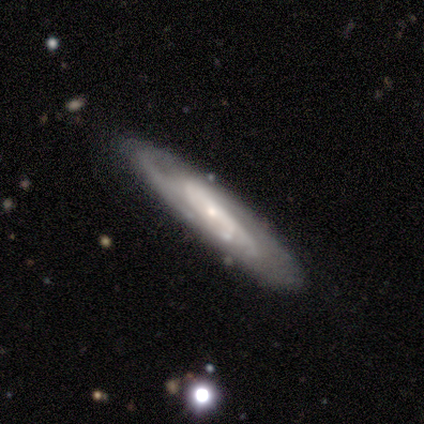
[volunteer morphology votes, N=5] Smooth or featured? 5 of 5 (100%) said featured or disk. Edge-on disk? 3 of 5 (60%) said yes. Edge-on bulge? 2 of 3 (67%) said rounded. Merging? 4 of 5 (80%) said none.